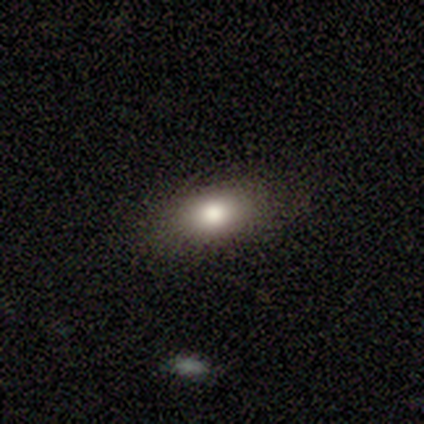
Smooth or featured?
  - smooth: 60% *
  - featured or disk: 20%
  - star or artifact: 20%
How rounded?
  - in between: 100% *
  - round: 0%
  - cigar-shaped: 0%
Merging?
  - none: 100% *
  - minor disturbance: 0%
  - major disturbance: 0%
  - merger: 0%